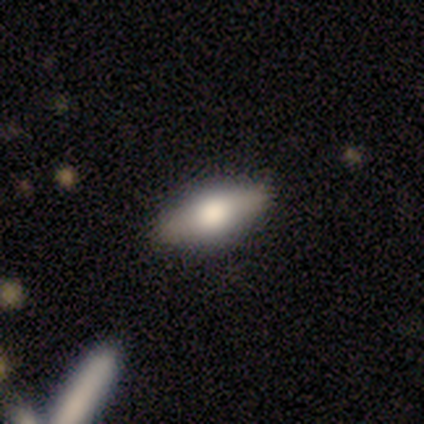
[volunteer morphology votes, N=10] smooth-or-featured: smooth: 60% | featured or disk: 30% | star or artifact: 10%
  how-rounded: in between: 67% | cigar-shaped: 33% | round: 0%
  merging: none: 89% | major disturbance: 11% | minor disturbance: 0% | merger: 0%